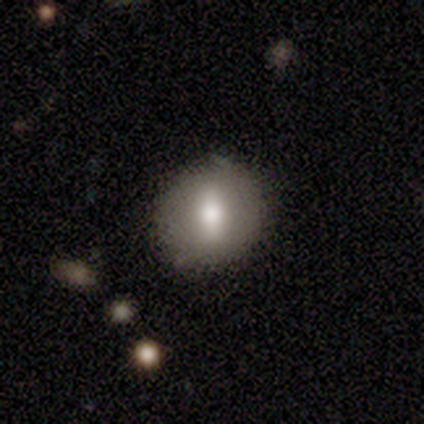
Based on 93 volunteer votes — smooth 63%, featured or disk 28%, star or artifact 9%. Down the decision tree: how rounded — round (71%); merging — none (80%).